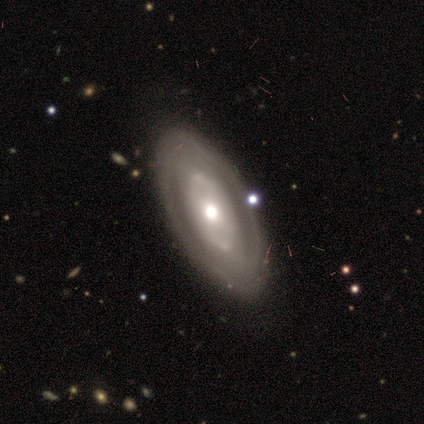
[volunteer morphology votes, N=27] Smooth or featured: featured or disk — 59% (smooth — 41%)
Edge-on disk: no — 88% (yes — 12%)
Bar: no — 93% (weak — 7%)
Spiral arms: yes — 57% (no — 43%)
Spiral winding: tight — 50% (medium — 38%)
Spiral arm count: 2 — 50% (tied with can't tell — 50%)
Bulge size: moderate — 79% (large — 14%)
Merging: none — 33% (merger — 19%)